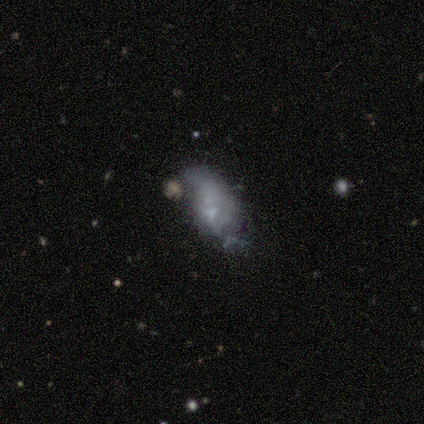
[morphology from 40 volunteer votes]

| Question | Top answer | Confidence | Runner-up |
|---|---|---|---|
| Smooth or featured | smooth | 52% | featured or disk (35%) |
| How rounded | in between | 95% | round (5%) |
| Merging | minor disturbance | 34% | none (31%) |